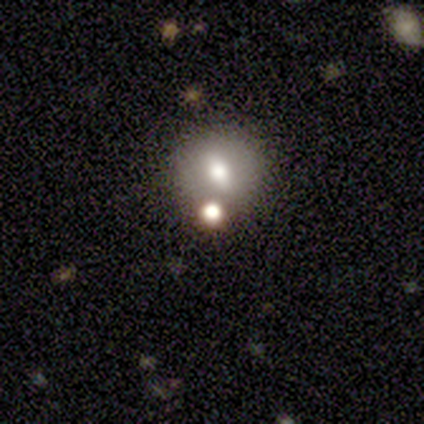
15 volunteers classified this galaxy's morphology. Volunteers were most divided on "smooth or featured": smooth: 47%, star or artifact: 40%, featured or disk: 13%. More confident: how rounded — round (71%); merging — none (67%).